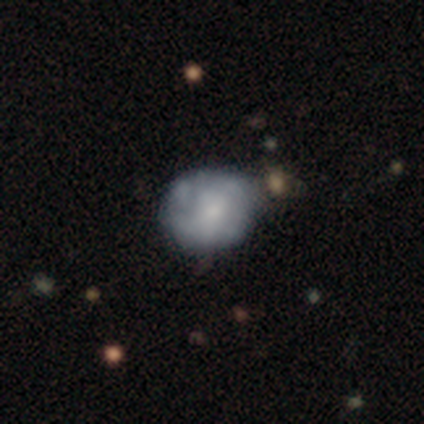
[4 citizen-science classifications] Smooth or featured? smooth (50%, tied with featured or disk)
How rounded? round (100%)
Merging? none (50%)